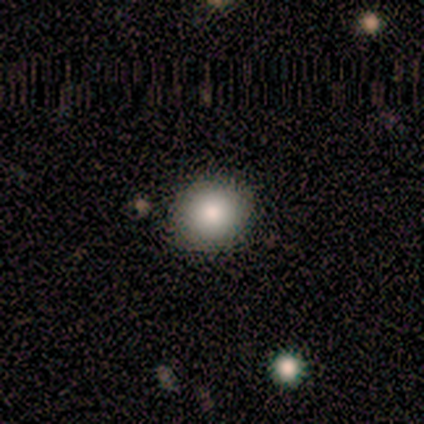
Morphology: type=smooth (100%); roundness=round (75%); merging=none (100%).